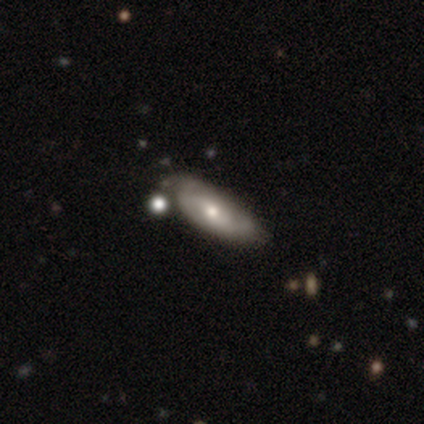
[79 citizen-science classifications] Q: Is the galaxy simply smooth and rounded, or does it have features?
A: featured or disk — 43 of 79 (54%).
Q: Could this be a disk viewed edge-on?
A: no — 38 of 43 (88%).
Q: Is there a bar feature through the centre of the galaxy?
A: no — 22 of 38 (58%).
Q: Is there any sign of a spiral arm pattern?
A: yes — 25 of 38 (66%).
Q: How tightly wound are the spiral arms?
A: tight — 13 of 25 (52%).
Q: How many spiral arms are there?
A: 2 — 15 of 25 (60%).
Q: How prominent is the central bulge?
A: moderate — 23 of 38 (61%).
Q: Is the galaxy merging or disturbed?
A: none — 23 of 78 (29%).